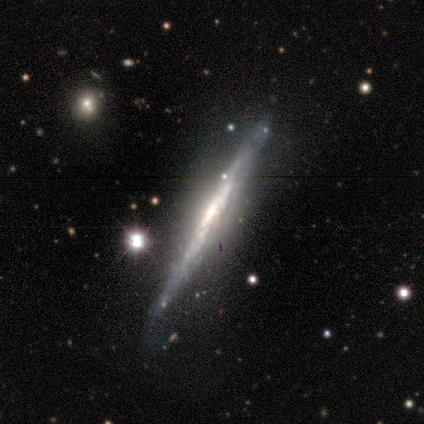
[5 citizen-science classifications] featured or disk 80%, star or artifact 20%, smooth 0%. Down the decision tree: edge-on disk — yes (75%); edge-on bulge — none (100%); merging — none (100%).